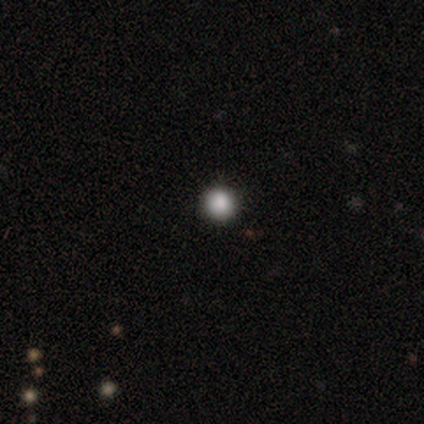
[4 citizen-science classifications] Morphology: type=smooth (75%); roundness=round (100%); merging=none (75%).